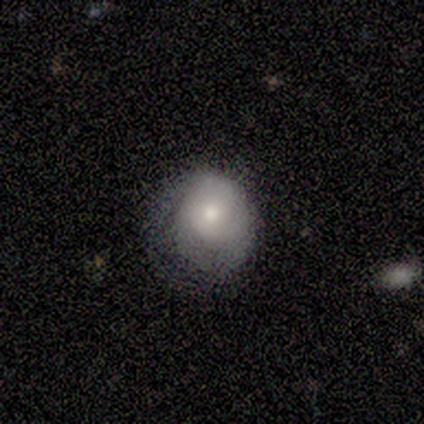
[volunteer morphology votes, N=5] Smooth or featured?
  - smooth: 60% *
  - featured or disk: 20%
  - star or artifact: 20%
How rounded?
  - round: 67% *
  - in between: 33%
  - cigar-shaped: 0%
Merging?
  - minor disturbance: 75% *
  - none: 25%
  - major disturbance: 0%
  - merger: 0%